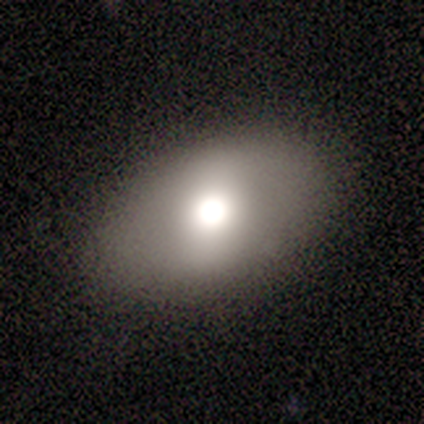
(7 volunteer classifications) Morphology: type=smooth (71%); roundness=in between (80%); merging=none (83%).